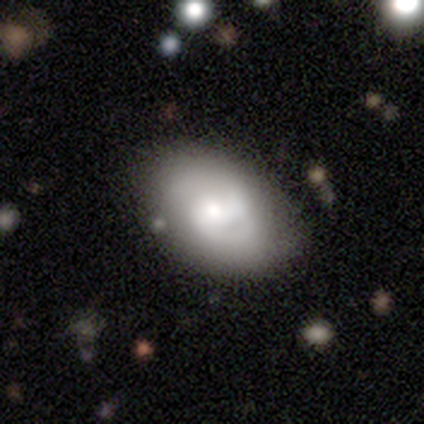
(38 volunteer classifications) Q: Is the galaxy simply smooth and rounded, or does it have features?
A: featured or disk — 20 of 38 (53%).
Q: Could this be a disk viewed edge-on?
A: no — 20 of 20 (100%).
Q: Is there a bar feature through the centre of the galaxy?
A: no — 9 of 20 (45%).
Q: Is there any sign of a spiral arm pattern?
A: yes — 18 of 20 (90%).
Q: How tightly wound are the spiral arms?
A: medium — 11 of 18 (61%).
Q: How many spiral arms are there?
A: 2 — 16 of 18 (89%).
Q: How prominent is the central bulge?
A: moderate — 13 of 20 (65%).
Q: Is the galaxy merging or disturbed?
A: none — 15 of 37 (41%).